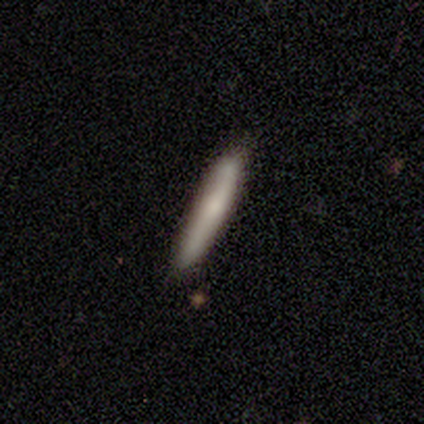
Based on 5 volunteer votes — smooth_or_featured: smooth (p=0.60) [alt: featured or disk p=0.40]
how_rounded: cigar-shaped (p=1.00)
merging: none (p=0.80) [alt: minor disturbance p=0.20]